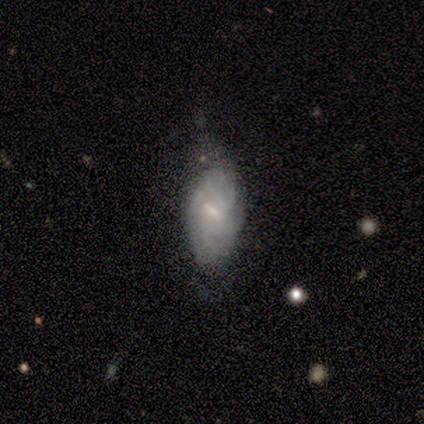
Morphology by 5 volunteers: Volunteers were most divided on "smooth or featured": smooth: 60%, featured or disk: 40%, star or artifact: 0%. More confident: how rounded — in between (100%); merging — none (60%).